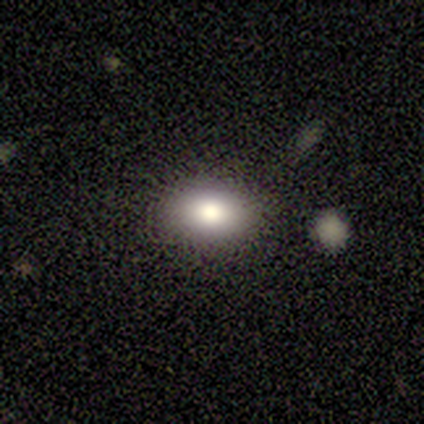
Smooth or featured: smooth — 100%
How rounded: in between — 80% (cigar-shaped — 20%)
Merging: none — 80% (major disturbance — 20%)